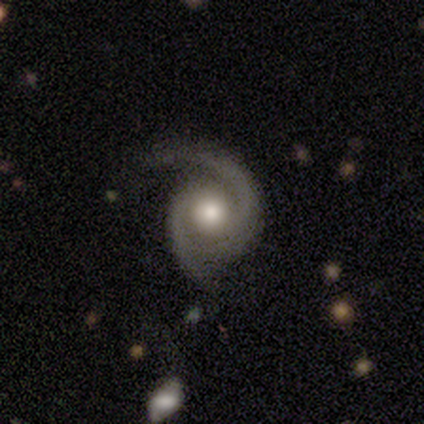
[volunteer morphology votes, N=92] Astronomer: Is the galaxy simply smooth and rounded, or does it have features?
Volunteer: featured or disk — 95%.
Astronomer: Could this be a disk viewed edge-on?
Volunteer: no — 95%.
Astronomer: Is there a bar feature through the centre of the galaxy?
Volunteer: no — 75%.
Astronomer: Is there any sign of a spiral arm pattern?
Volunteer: yes — 98%.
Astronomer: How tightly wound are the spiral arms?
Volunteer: medium — 57% (runner-up: tight, 37%).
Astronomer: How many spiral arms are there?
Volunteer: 2 — 84%.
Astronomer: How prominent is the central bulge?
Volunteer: moderate — 58% (runner-up: large, 35%).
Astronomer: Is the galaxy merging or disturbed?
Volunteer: none — 64%.